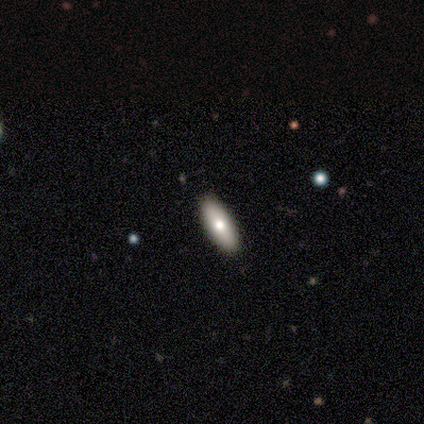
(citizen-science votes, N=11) smooth_or_featured: smooth (p=0.82) [alt: featured or disk p=0.18]
how_rounded: in between (p=0.89) [alt: cigar-shaped p=0.11]
merging: none (p=1.00)